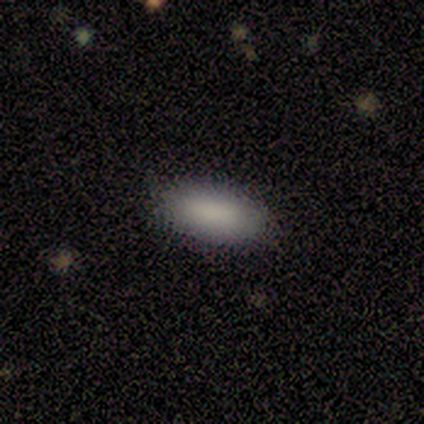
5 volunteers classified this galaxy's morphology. type=smooth (80%); roundness=in between (100%); merging=none (80%).